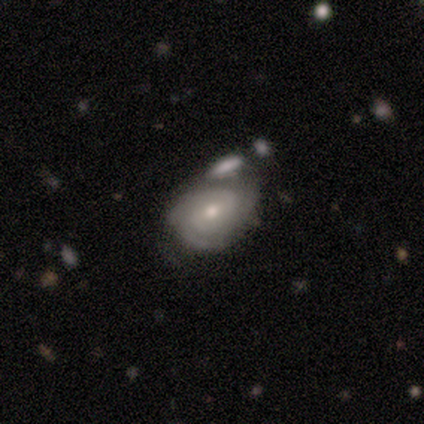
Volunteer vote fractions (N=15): Smooth or featured?
  - featured or disk: 73% *
  - smooth: 27%
  - star or artifact: 0%
Edge-on disk?
  - no: 100% *
  - yes: 0%
Bar?
  - no: 45% *
  - weak: 36%
  - strong: 18%
Spiral arms?
  - yes: 82% *
  - no: 18%
Spiral winding?
  - tight: 67% *
  - medium: 33%
  - loose: 0%
Spiral arm count?
  - 2: 33% *
  - 3: 22%
  - can't tell: 22%
  - 1: 11%
  - more than 4: 11%
  - 4: 0%
Bulge size?
  - moderate: 64% *
  - small: 36%
  - dominant: 0%
  - large: 0%
  - none: 0%
Merging?
  - none: 40% *
  - merger: 33%
  - minor disturbance: 20%
  - major disturbance: 7%